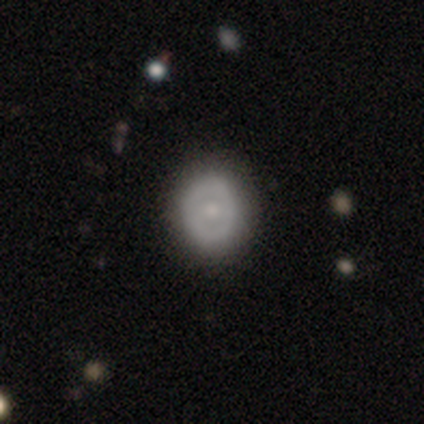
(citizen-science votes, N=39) Smooth or featured? 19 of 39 (49%, tied with featured or disk) said smooth. How rounded? 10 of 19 (53%) said round. Merging? 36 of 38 (95%) said none.